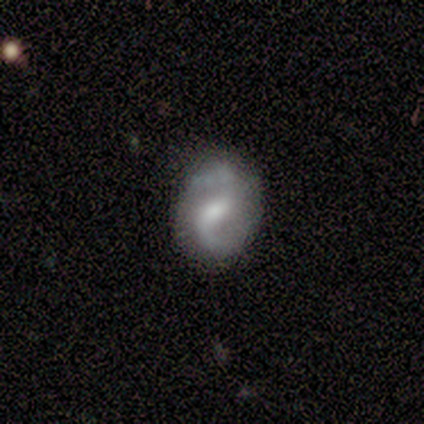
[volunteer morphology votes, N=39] Smooth or featured? 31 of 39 (79%) said featured or disk. Edge-on disk? 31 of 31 (100%) said no. Bar? 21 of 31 (68%) said weak. Spiral arms? 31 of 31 (100%) said yes. Spiral winding? 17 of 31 (55%) said loose. Spiral arm count? 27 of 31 (87%) said 2. Bulge size? 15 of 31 (48%) said moderate. Merging? 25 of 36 (69%) said none.